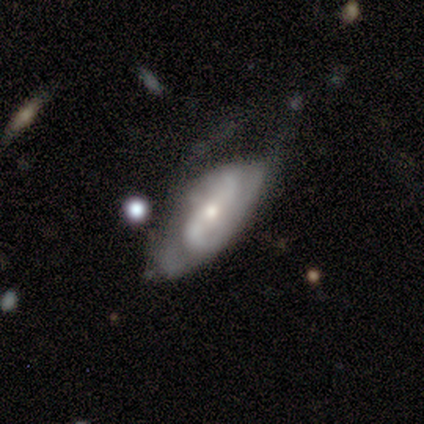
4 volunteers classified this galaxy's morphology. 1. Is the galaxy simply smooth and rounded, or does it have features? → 75% featured or disk, 25% smooth, 0% star or artifact.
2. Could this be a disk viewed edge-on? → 100% no, 0% yes.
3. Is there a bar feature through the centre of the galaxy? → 67% no, 33% weak, 0% strong.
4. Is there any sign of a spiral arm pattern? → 100% yes, 0% no.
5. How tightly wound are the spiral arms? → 67% medium, 33% loose, 0% tight.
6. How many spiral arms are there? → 100% 2, 0% 1, 0% 3, 0% 4, 0% more than 4, 0% can't tell.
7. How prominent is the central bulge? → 67% small, 33% moderate, 0% dominant, 0% large, 0% none.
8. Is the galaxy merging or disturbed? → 50% none (tied), 50% minor disturbance (tied), 0% major disturbance, 0% merger.